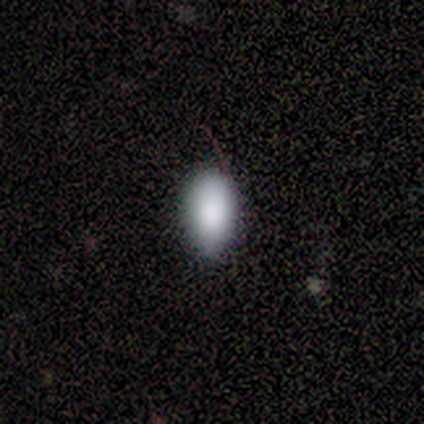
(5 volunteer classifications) smooth 100%, featured or disk 0%, star or artifact 0%. Down the decision tree: how rounded — in between (100%); merging — none (80%).